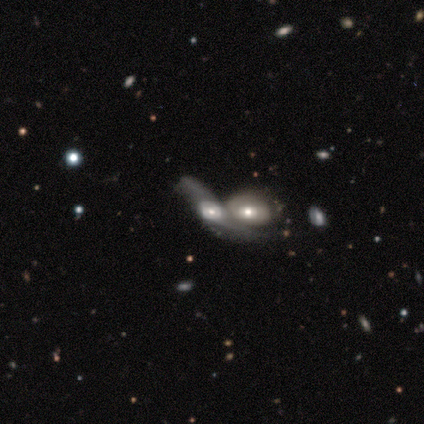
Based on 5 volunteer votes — Smooth or featured? featured or disk (60%)
Edge-on disk? no (67%)
Bar? weak (50%, tied with no)
Spiral arms? yes (50%, tied with no)
Spiral winding? medium (100%)
Spiral arm count? 2 (100%)
Bulge size? large (50%, tied with moderate)
Merging? merger (75%)